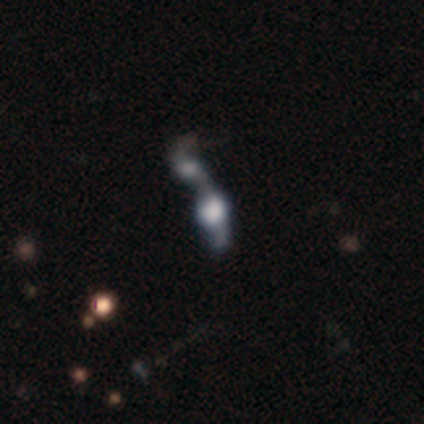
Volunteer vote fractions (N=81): Smooth or featured? featured or disk (46%)
Edge-on disk? no (76%)
Bar? no (86%)
Spiral arms? no (75%)
Bulge size? dominant (36%)
Merging? merger (53%)